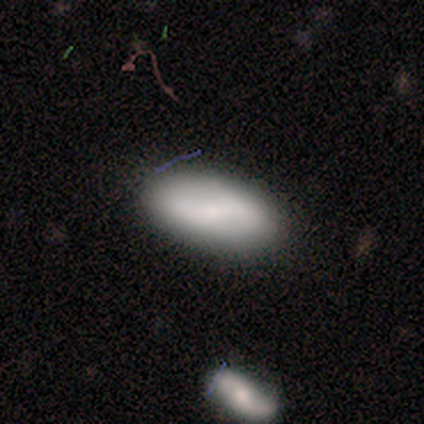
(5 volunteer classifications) This is clearly a smooth galaxy (80%). How rounded: likely in between (75%). Merging: likely none (75%).